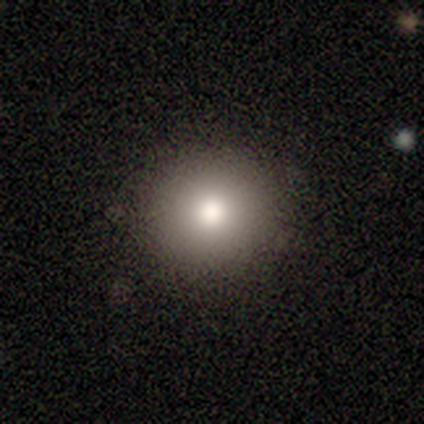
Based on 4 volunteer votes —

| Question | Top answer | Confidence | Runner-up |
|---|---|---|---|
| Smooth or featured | smooth | 75% | featured or disk (25%) |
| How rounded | round | 100% | — |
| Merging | none | 100% | — |